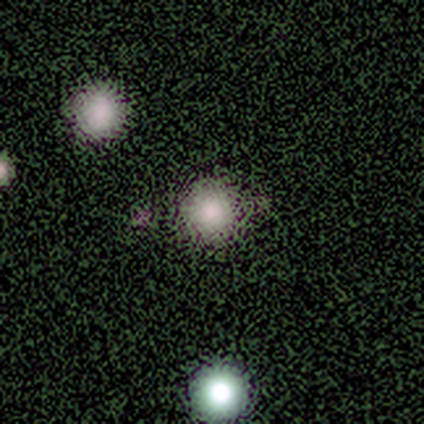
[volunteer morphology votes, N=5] Smooth or featured? smooth (60%)
How rounded? round (100%)
Merging? minor disturbance (67%)